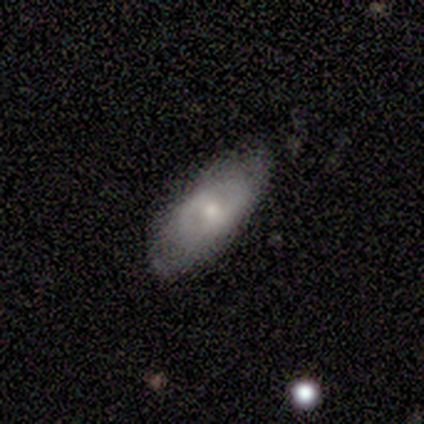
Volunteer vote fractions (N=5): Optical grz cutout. It shows a smooth galaxy with no disk features (40%, tied with featured or disk) that is in between round and cigar-shaped (100%). Merging: none (100%).